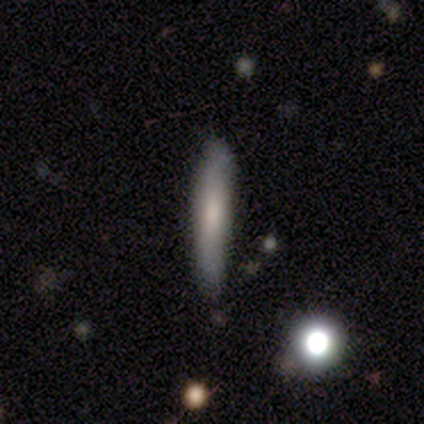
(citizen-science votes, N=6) Morphology: type=smooth (100%); roundness=cigar-shaped (67%); merging=none (67%).